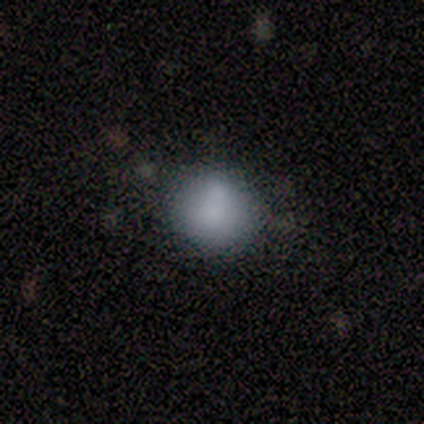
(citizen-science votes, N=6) smooth_or_featured: smooth (p=0.50) [alt: star or artifact p=0.33]
how_rounded: round (p=1.00)
merging: none (p=0.75) [alt: merger p=0.25]